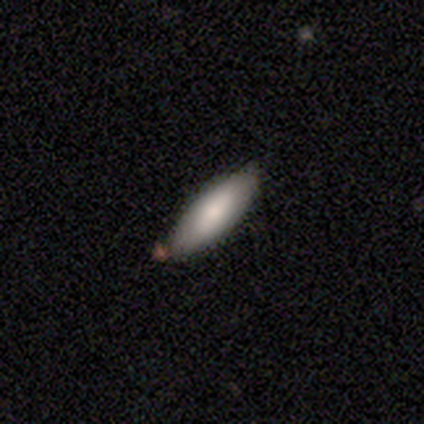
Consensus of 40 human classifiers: smooth 78%, featured or disk 15%, star or artifact 8%. Down the decision tree: how rounded — in between (68%); merging — none (73%).